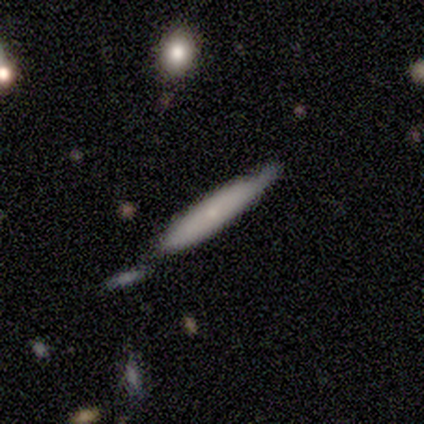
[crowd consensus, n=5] smooth 80%, featured or disk 20%, star or artifact 0%. Down the decision tree: how rounded — cigar-shaped (100%); merging — none (100%).